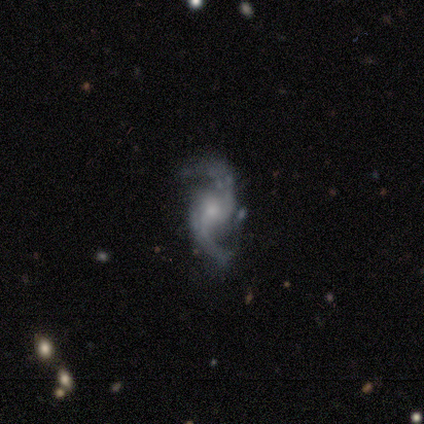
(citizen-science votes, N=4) Volunteers were most divided on "bar": no: 67%, weak: 33%, strong: 0%. More confident: edge-on disk — no (100%); spiral arms — yes (100%); spiral arm count — 2 (100%); merging — none (100%); smooth or featured — featured or disk (75%); spiral winding — loose (67%); bulge size — moderate (67%).